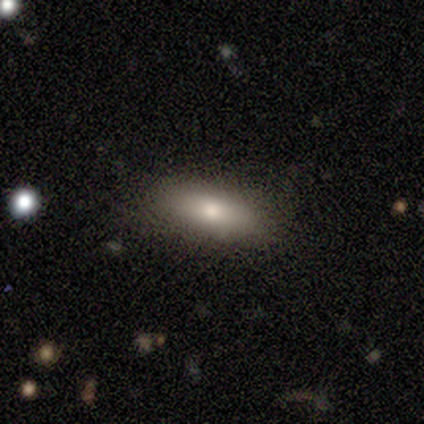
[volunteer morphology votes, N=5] This is clearly a smooth galaxy (80%). How rounded: likely in between (75%). Merging: clearly none (100%).